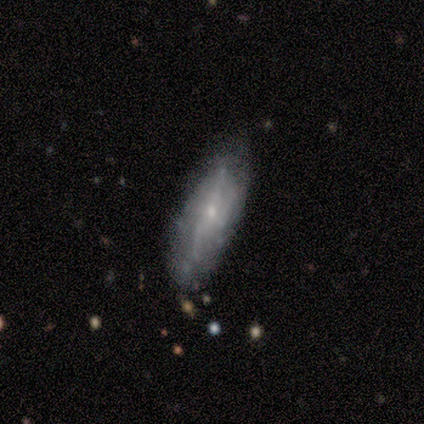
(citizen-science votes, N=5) featured or disk 60%, smooth 40%, star or artifact 0%. Down the decision tree: edge-on disk — no (67%); bar — weak (50%, tied with no); spiral arms — yes (100%); spiral arm count — 2 (50%, tied with can't tell); spiral winding — tight (50%, tied with loose); bulge size — small (100%); merging — none (80%).